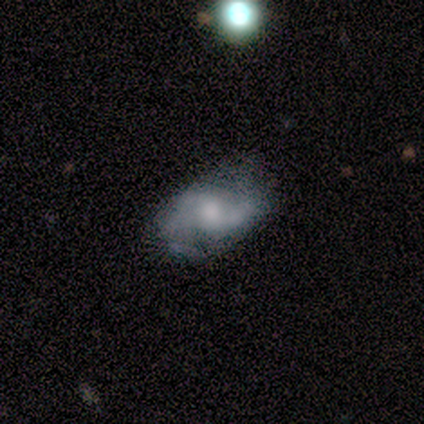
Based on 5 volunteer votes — Smooth or featured? 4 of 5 (80%) said featured or disk. Edge-on disk? 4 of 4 (100%) said no. Bar? 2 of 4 (50%, tied with no) said weak. Spiral arms? 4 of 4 (100%) said yes. Spiral winding? 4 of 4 (100%) said medium. Spiral arm count? 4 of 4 (100%) said 2. Bulge size? 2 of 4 (50%, tied with small) said moderate. Merging? 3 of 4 (75%) said none.